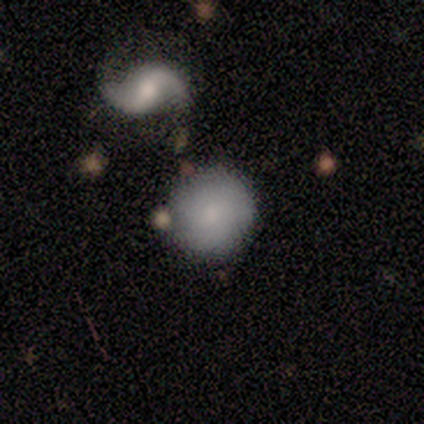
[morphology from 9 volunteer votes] A featured or disk galaxy (56%) with no bar (75%), no spiral arms (75%) and a small central bulge (100%). Merging: none (57%).